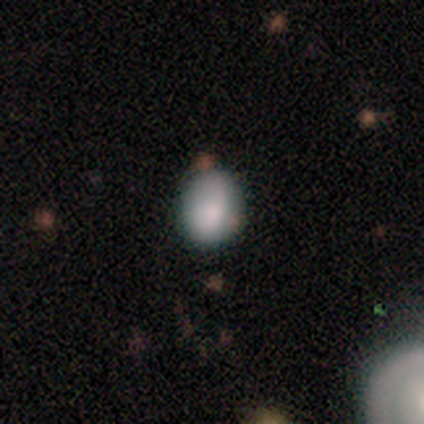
Overall: smooth (60%; featured or disk 40%). How rounded: in between (67%; round 33%). Merging: minor disturbance (60%; none 20%).